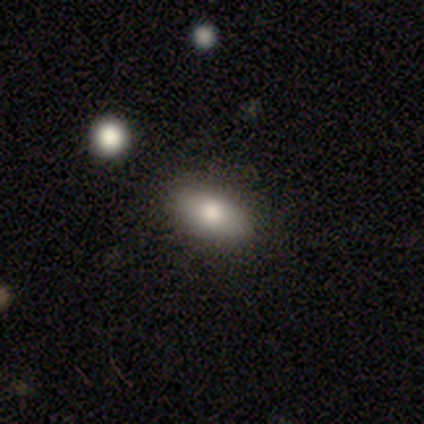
Smooth or featured?
  - smooth: 60% *
  - featured or disk: 40%
  - star or artifact: 0%
How rounded?
  - in between: 100% *
  - round: 0%
  - cigar-shaped: 0%
Merging?
  - none: 60% *
  - minor disturbance: 40%
  - major disturbance: 0%
  - merger: 0%